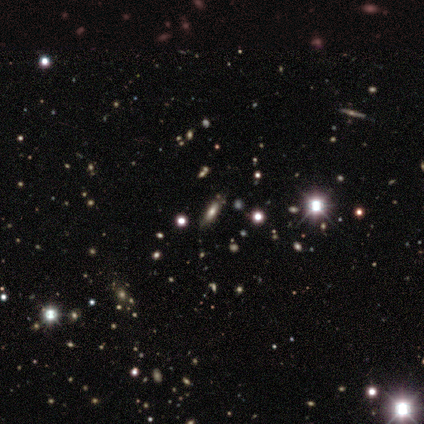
Smooth or featured? smooth (56%)
How rounded? in between (60%)
Merging? none (57%)